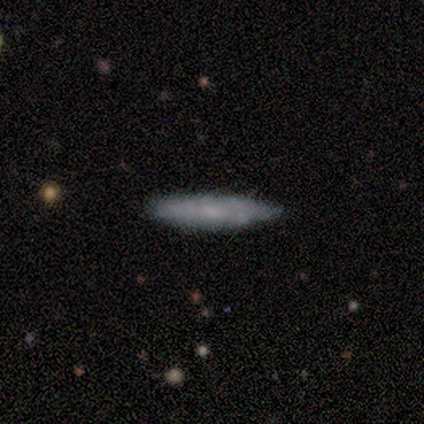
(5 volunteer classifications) smooth_or_featured: featured or disk (p=0.60) [alt: smooth p=0.40]
disk_edge_on: yes (p=1.00)
edge_on_bulge: none (p=0.67) [alt: rounded p=0.33]
merging: none (p=0.80) [alt: minor disturbance p=0.20]